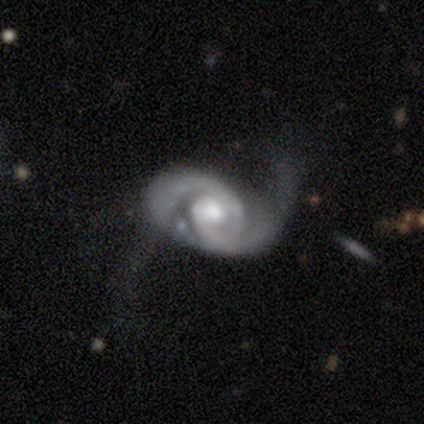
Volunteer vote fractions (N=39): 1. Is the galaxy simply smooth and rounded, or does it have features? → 92% featured or disk, 8% star or artifact, 0% smooth.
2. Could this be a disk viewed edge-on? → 97% no, 3% yes.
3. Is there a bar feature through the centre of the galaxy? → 69% no, 17% weak, 14% strong.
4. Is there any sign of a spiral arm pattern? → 97% yes, 3% no.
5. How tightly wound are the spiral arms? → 50% tight, 29% medium, 21% loose.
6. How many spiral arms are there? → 97% 2, 3% more than 4, 0% 1, 0% 3, 0% 4, 0% can't tell.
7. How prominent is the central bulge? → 86% moderate, 9% large, 6% small, 0% dominant, 0% none.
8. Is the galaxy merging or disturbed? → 47% major disturbance, 33% none, 19% minor disturbance, 0% merger.